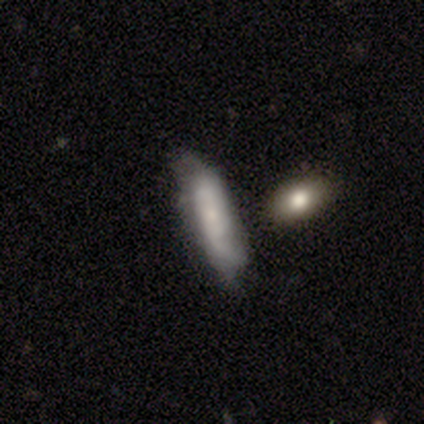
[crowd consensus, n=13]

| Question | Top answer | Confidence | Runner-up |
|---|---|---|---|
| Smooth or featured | featured or disk | 69% | smooth (31%) |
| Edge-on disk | no | 56% | yes (44%) |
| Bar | no | 80% | strong (20%) |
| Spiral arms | yes | 80% | no (20%) |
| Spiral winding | tight | 50% | medium (25%) |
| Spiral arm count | can't tell | 50% | 1 (25%) |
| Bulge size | small | 80% | none (20%) |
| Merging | none | 62% | minor disturbance (38%) |